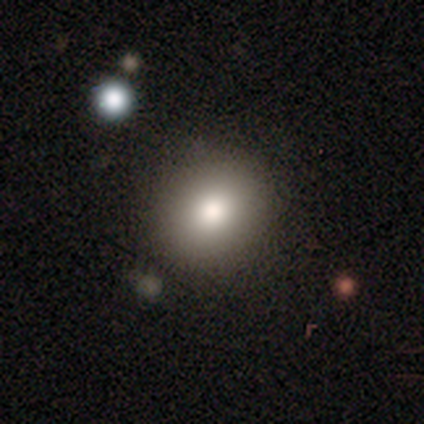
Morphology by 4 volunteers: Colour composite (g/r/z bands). It shows a smooth galaxy with no disk features (75%) that is round (100%). Merging: none (100%).